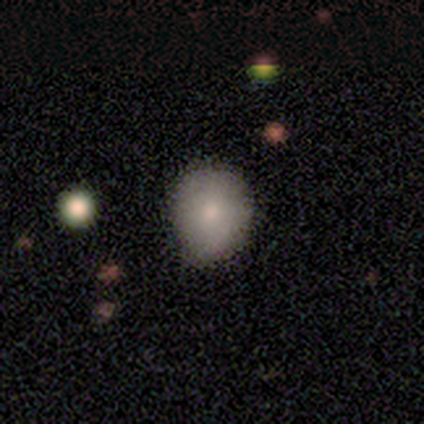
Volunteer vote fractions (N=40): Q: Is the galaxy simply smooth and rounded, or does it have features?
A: smooth — 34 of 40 (85%).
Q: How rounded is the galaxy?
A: round — 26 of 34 (76%).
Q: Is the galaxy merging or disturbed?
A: none — 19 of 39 (49%).